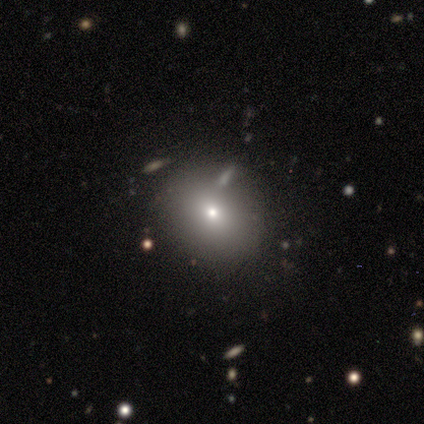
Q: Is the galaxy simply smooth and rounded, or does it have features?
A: smooth — 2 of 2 (100%).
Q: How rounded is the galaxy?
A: round — 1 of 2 (50%, tied with in between).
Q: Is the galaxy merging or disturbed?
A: none — 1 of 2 (50%, tied with major disturbance).